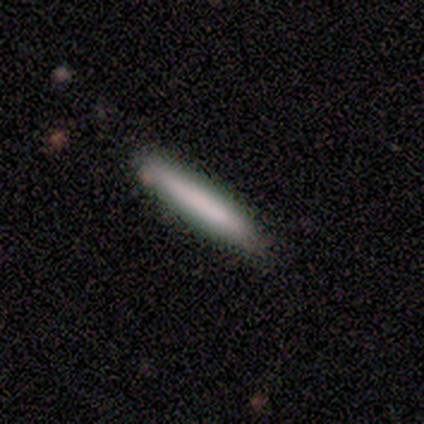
smooth 100%, featured or disk 0%, star or artifact 0%. Down the decision tree: how rounded — cigar-shaped (100%); merging — none (100%).